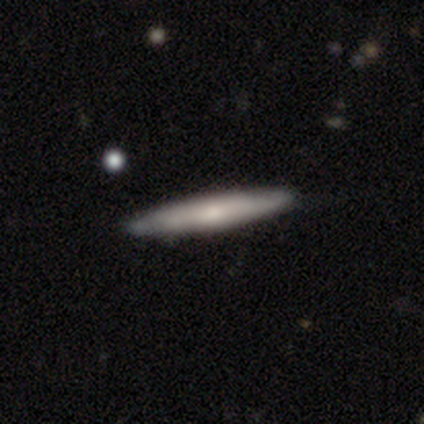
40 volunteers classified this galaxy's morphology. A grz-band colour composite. It shows a smooth galaxy with no disk features (50%) that is cigar-shaped (95%). Merging: none (92%).